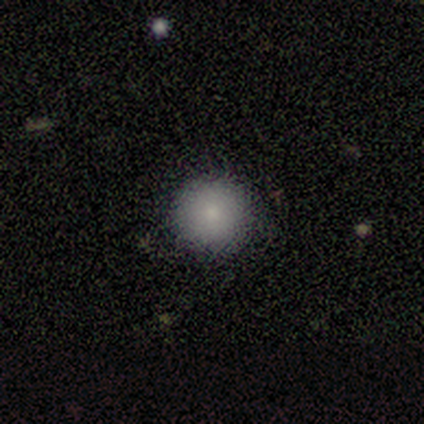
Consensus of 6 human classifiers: A smooth galaxy with no disk features (83%) that is round (100%).

Vote fractions:
- Smooth or featured? smooth: 83% / star or artifact: 17% / featured or disk: 0%
- How rounded? round: 100% / in between: 0% / cigar-shaped: 0%
- Merging? none: 80% / minor disturbance: 20% / major disturbance: 0% / merger: 0%